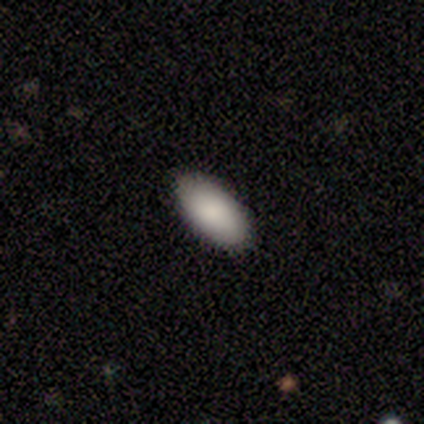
Smooth or featured? 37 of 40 (92%) said smooth. How rounded? 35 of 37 (95%) said in between. Merging? 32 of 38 (84%) said none.